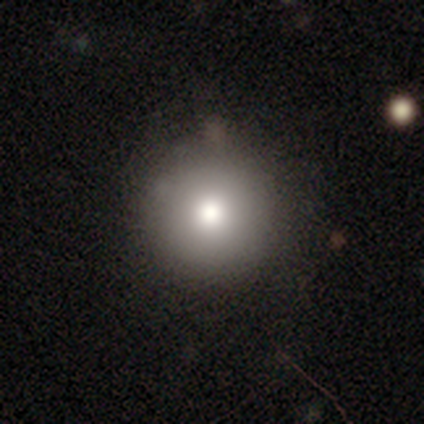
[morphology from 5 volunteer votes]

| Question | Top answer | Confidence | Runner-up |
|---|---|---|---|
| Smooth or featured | smooth | 80% | featured or disk (20%) |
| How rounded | round | 100% | — |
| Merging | none | 100% | — |